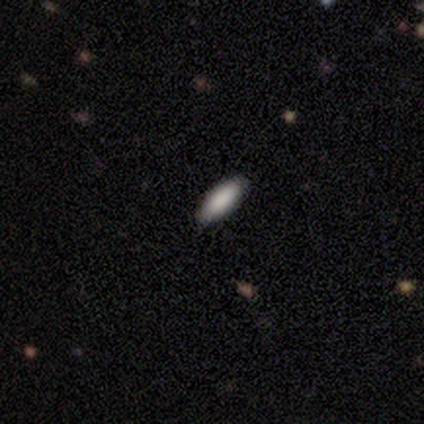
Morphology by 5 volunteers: This appears to be a smooth galaxy with no disk features (80%) that is in between round and cigar-shaped (100%). Merging: none (100%).